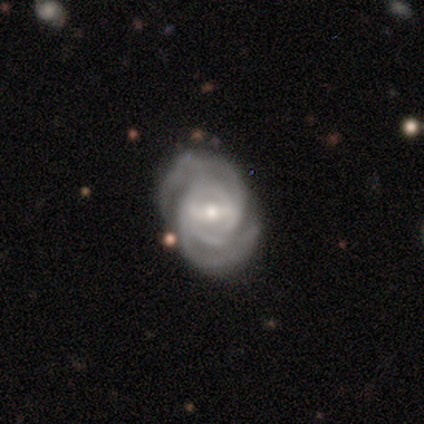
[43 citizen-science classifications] This is clearly a featured or disk galaxy (88%). It is clearly not viewed edge-on (95%). Bar: possibly weak (53%). Spiral arm pattern: clearly yes (100%). Spiral arm count: likely 2 (72%). Spiral winding: possibly tight (58%). Central bulge: possibly small (50%). Merging: clearly none (82%).